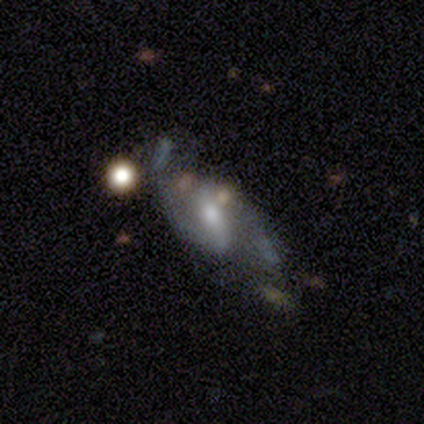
Overall: featured or disk (81%). Edge-on disk: no (99%). Bar: strong (46%; weak 42%). Spiral arms: yes (97%). Spiral arm count: 2 (100%). Spiral winding: loose (52%; medium 43%). Bulge size: moderate (52%; small 41%). Merging: none (57%; major disturbance 23%).